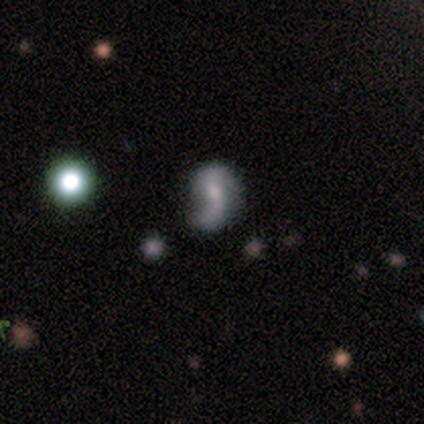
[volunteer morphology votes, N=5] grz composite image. It shows a featured or disk galaxy (60%) with a strong bar (33%, tied with weak and no), 2 (100%) loose (100%) spiral arms (100%) and a moderate central bulge (67%). Merging: none (80%).